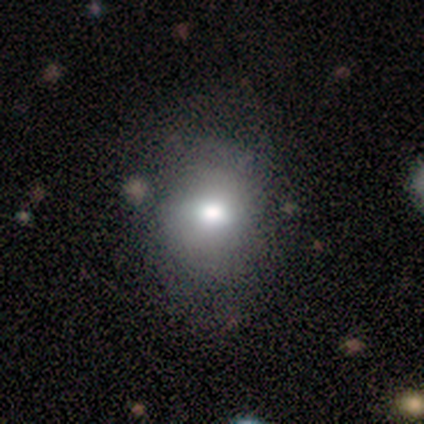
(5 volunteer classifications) Smooth or featured? 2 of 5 (40%, tied with star or artifact) said smooth. How rounded? 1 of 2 (50%, tied with in between) said round. Merging? 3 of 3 (100%) said none.